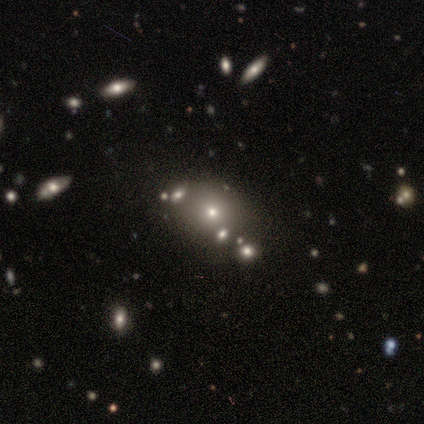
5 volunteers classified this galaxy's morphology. A smooth galaxy with no disk features (60%) that is in between round and cigar-shaped (67%). Merging: none (50%, tied with minor disturbance).